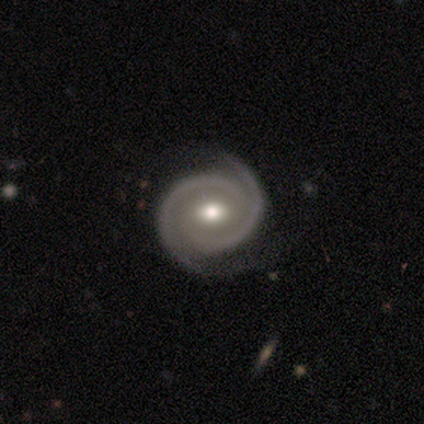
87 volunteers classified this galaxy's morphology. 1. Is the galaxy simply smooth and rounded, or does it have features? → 93% featured or disk, 5% smooth, 2% star or artifact.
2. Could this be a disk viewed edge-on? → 100% no, 0% yes.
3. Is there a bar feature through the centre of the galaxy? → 47% no, 43% weak, 10% strong.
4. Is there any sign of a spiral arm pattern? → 98% yes, 2% no.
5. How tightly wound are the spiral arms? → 61% tight, 35% medium, 4% loose.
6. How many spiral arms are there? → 97% 2, 1% 3, 1% can't tell, 0% 1, 0% 4, 0% more than 4.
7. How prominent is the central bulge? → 88% moderate, 6% small, 5% large, 1% dominant, 0% none.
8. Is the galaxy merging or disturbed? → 88% none, 9% minor disturbance, 2% major disturbance, 0% merger.